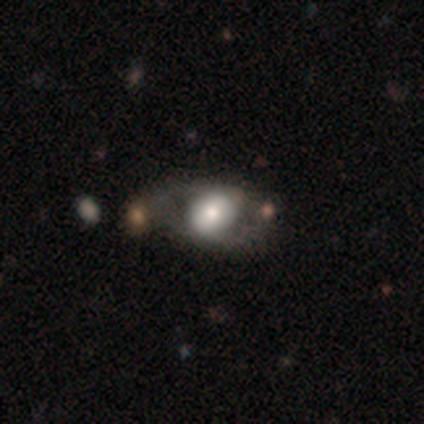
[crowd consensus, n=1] Overall: smooth (100%). How rounded: in between (100%). Merging: major disturbance (100%).